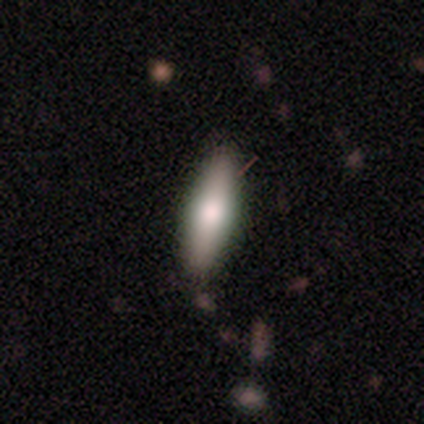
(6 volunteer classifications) Smooth or featured?
  - smooth: 83% *
  - featured or disk: 17%
  - star or artifact: 0%
How rounded?
  - cigar-shaped: 60% *
  - in between: 40%
  - round: 0%
Merging?
  - none: 100% *
  - minor disturbance: 0%
  - major disturbance: 0%
  - merger: 0%